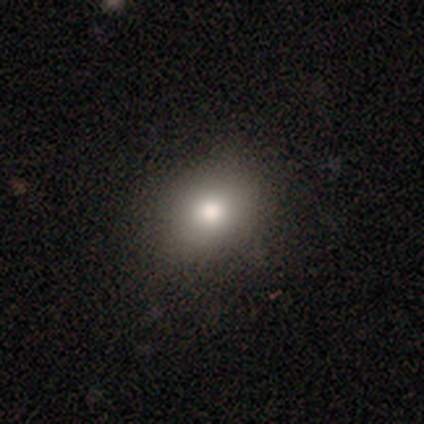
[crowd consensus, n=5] Morphology: type=smooth (100%); roundness=in between (60%); merging=none (80%).